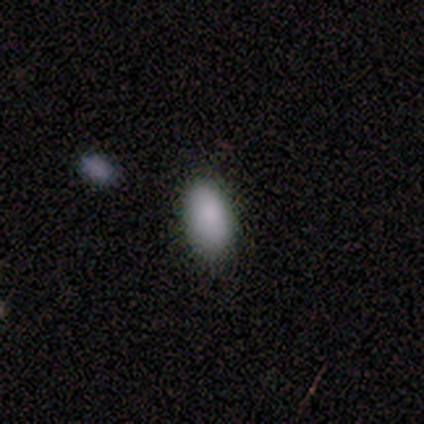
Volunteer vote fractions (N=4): smooth 100%, featured or disk 0%, star or artifact 0%. Down the decision tree: how rounded — in between (100%); merging — none (100%).